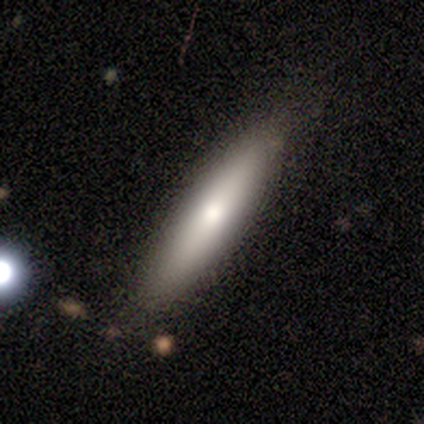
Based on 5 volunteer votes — Q: Smooth or featured?
A: smooth (60%); runner-up: featured or disk (40%)
Q: How rounded?
A: cigar-shaped (100%)
Q: Merging?
A: none (100%)